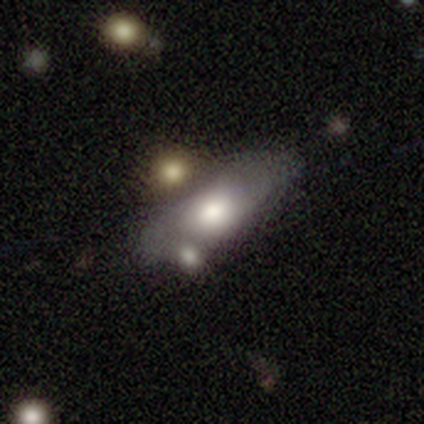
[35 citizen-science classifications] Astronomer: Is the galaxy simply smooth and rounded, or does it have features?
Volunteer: smooth — 60%.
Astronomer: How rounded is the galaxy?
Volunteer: in between — 67%.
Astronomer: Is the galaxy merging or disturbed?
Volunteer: merger — 52%.